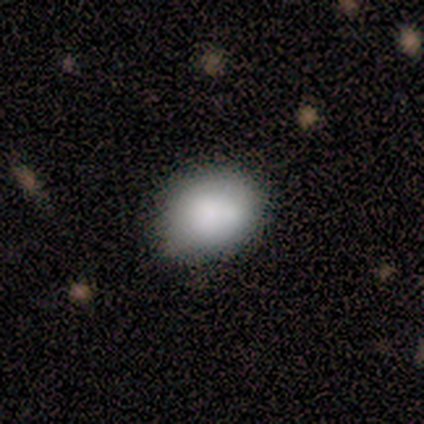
Smooth or featured? smooth (80%)
How rounded? round (50%, tied with in between)
Merging? none (100%)